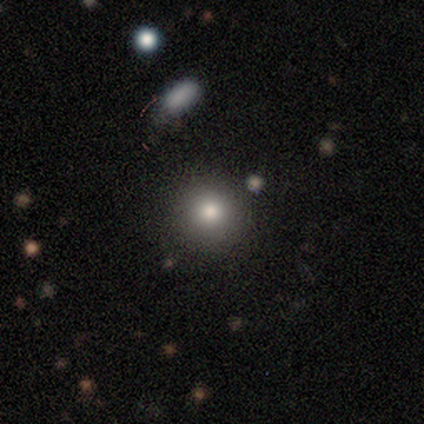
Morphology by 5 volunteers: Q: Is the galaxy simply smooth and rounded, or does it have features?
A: smooth — 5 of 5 (100%).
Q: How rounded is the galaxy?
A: round — 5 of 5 (100%).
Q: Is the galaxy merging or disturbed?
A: none — 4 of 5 (80%).